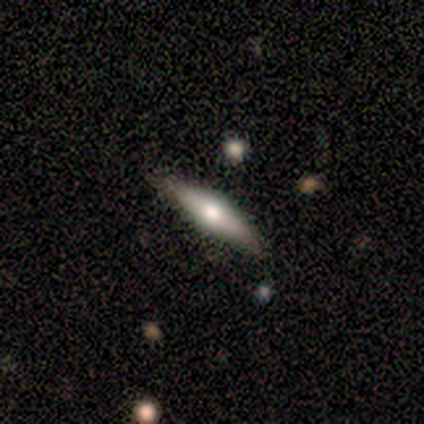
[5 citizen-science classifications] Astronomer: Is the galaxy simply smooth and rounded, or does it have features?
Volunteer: smooth — 60%.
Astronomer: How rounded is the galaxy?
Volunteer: cigar-shaped — 67%.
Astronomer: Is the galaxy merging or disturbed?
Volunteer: none — 75%.